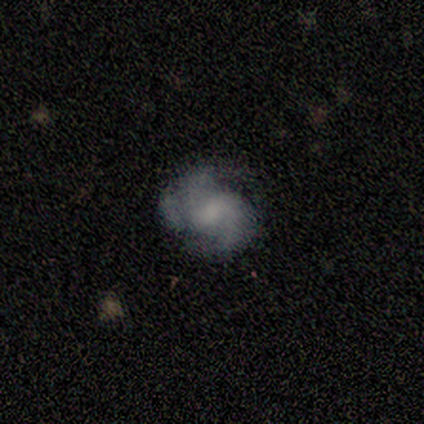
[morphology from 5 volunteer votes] Overall: featured or disk (80%). Edge-on disk: no (100%). Bar: weak (50%, tied with no). Spiral arms: yes (75%). Spiral arm count: 2 (67%; 3 33%). Spiral winding: medium (67%; loose 33%). Bulge size: none (50%; large 25%). Merging: none (60%; minor disturbance 20%).